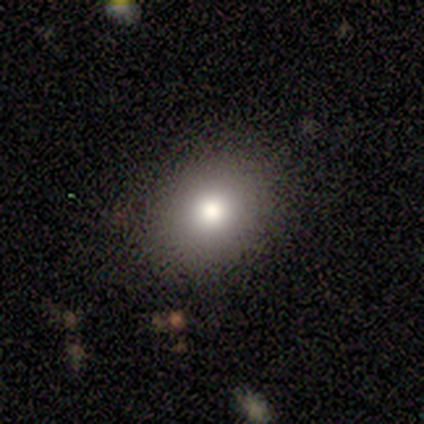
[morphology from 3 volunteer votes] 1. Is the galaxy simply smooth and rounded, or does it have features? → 100% smooth, 0% featured or disk, 0% star or artifact.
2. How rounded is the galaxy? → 100% round, 0% in between, 0% cigar-shaped.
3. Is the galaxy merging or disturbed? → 100% none, 0% minor disturbance, 0% major disturbance, 0% merger.